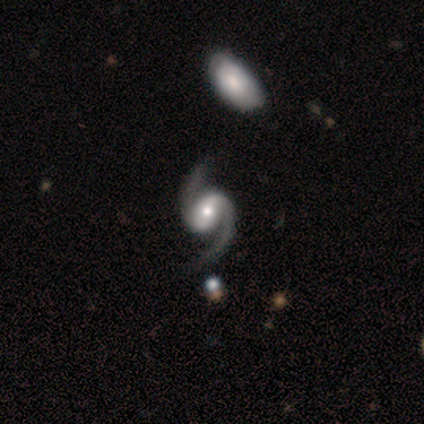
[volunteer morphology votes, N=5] Q: Smooth or featured?
A: featured or disk (100%)
Q: Edge-on disk?
A: no (100%)
Q: Bar?
A: weak (60%); runner-up: strong (20%)
Q: Spiral arms?
A: yes (80%); runner-up: no (20%)
Q: Spiral winding?
A: medium (50%); runner-up: tight (25%)
Q: Spiral arm count?
A: 2 (100%)
Q: Bulge size?
A: moderate (40%); tied with: small (40%)
Q: Merging?
A: none (100%)